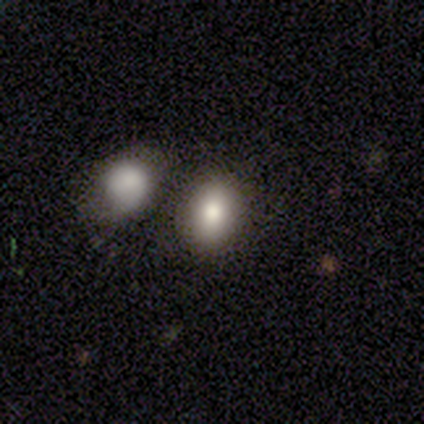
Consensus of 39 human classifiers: Q: Smooth or featured?
A: smooth (74%); runner-up: featured or disk (13%)
Q: How rounded?
A: round (52%); runner-up: in between (48%)
Q: Merging?
A: none (62%); runner-up: merger (35%)